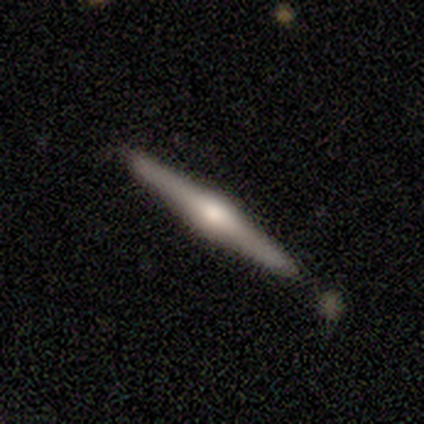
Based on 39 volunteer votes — smooth_or_featured: featured or disk (p=0.79) [alt: smooth p=0.21]
disk_edge_on: yes (p=1.00)
edge_on_bulge: rounded (p=0.87) [alt: boxy p=0.10]
merging: none (p=0.95) [alt: minor disturbance p=0.03]